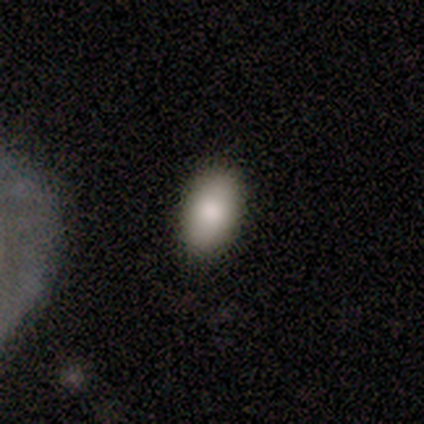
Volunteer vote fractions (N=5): A smooth galaxy with no disk features (100%) that is in between round and cigar-shaped (100%). Merging: none (60%).